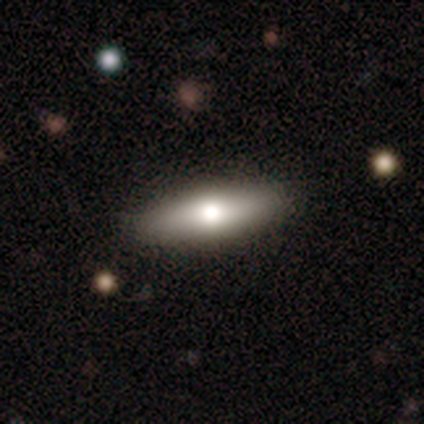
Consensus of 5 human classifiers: smooth 60%, featured or disk 40%, star or artifact 0%. Down the decision tree: how rounded — in between (100%); merging — none (100%).